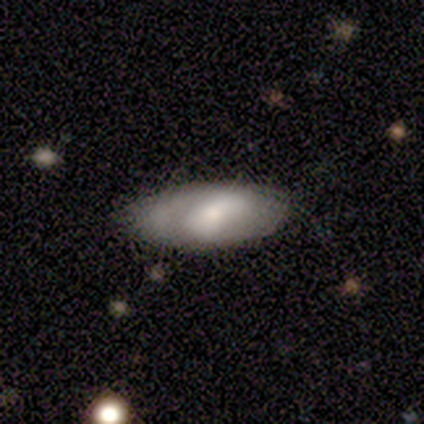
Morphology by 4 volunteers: type=smooth (75%); roundness=in between (100%); merging=none (50%).